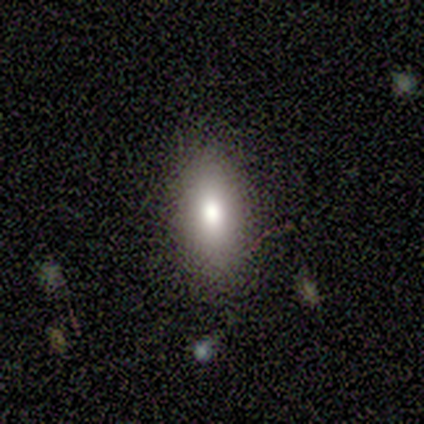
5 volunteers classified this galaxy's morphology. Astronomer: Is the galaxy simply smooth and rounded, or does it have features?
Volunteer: smooth — 80%.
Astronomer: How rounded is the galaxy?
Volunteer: in between — 75%.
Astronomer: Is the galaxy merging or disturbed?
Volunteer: none — 100%.